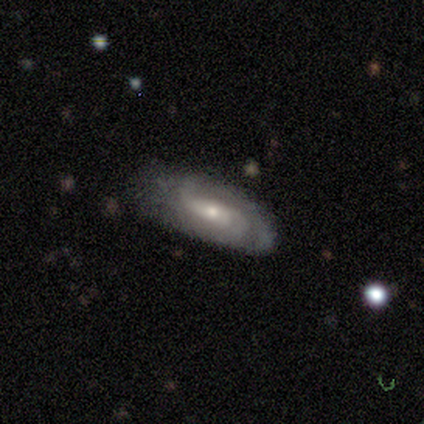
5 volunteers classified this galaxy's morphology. type=featured or disk (100%); edge-on=no (80%); bar=weak (75%); spiral arms=yes (100%); winding=loose (75%); arm count=2 (75%); bulge=moderate (75%); merging=none (80%).